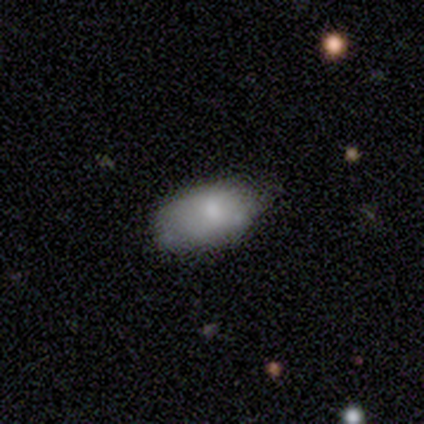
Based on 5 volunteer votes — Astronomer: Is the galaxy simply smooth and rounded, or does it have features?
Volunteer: smooth — 60% (runner-up: featured or disk, 40%).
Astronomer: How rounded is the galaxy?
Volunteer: in between — 100%.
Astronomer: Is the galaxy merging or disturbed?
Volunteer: minor disturbance — 60% (runner-up: none, 40%).